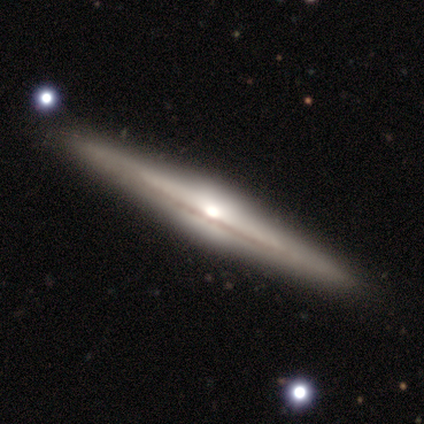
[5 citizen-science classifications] This is likely a featured or disk galaxy (60%). It is clearly viewed edge-on (100%). Edge-on bulge: likely rounded (67%). Merging: clearly none (100%).